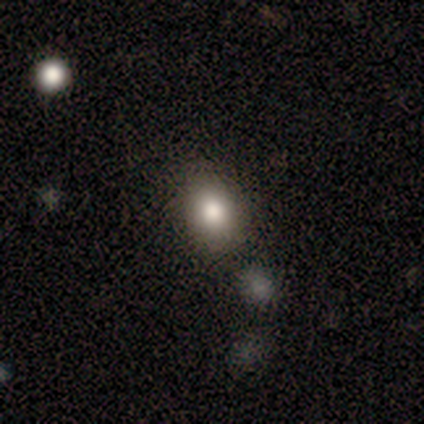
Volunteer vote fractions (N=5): smooth-or-featured: smooth: 100% | featured or disk: 0% | star or artifact: 0%
  how-rounded: in between: 60% | round: 40% | cigar-shaped: 0%
  merging: none: 100% | minor disturbance: 0% | major disturbance: 0% | merger: 0%